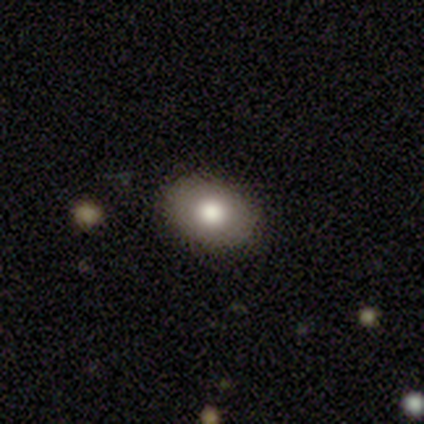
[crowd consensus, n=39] A smooth galaxy with no disk features (67%) that is in between round and cigar-shaped (85%). Merging: none (90%).